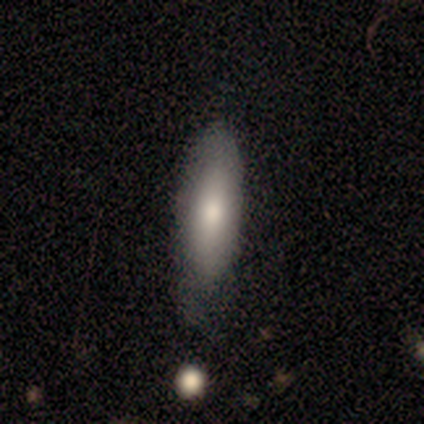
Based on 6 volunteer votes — A smooth galaxy with no disk features (83%) that is in between round and cigar-shaped (60%).

Vote fractions:
- Smooth or featured? smooth: 83% / featured or disk: 17% / star or artifact: 0%
- How rounded? in between: 60% / cigar-shaped: 40% / round: 0%
- Merging? none: 83% / minor disturbance: 17% / major disturbance: 0% / merger: 0%